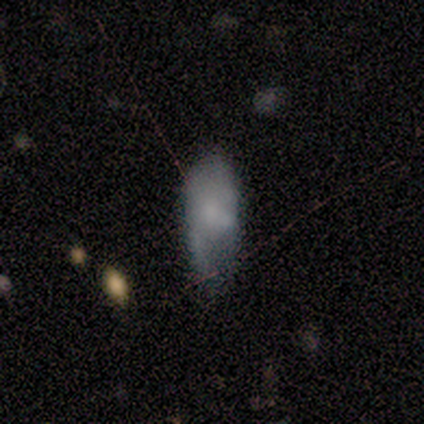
A smooth galaxy with no disk features (60%) that is in between round and cigar-shaped (100%).

Vote fractions:
- Smooth or featured? smooth: 60% / featured or disk: 40% / star or artifact: 0%
- How rounded? in between: 100% / round: 0% / cigar-shaped: 0%
- Merging? minor disturbance: 40% / none: 20% / major disturbance: 20% / merger: 20%